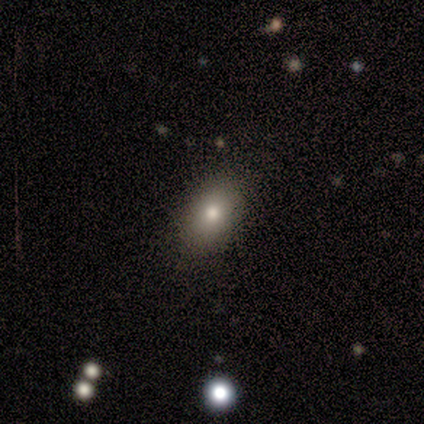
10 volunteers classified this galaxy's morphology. smooth-or-featured: smooth: 80% | featured or disk: 10% | star or artifact: 10%
  how-rounded: in between: 100% | round: 0% | cigar-shaped: 0%
  merging: none: 67% | minor disturbance: 33% | major disturbance: 0% | merger: 0%